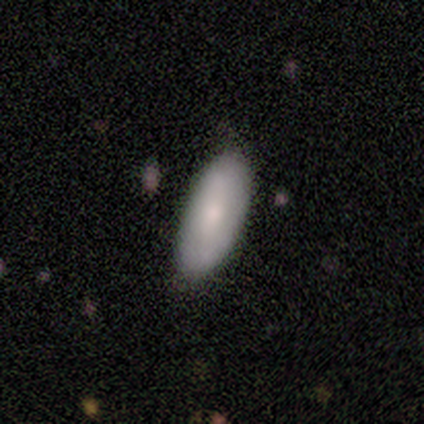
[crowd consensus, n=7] Smooth or featured: smooth — 71% (featured or disk — 29%)
How rounded: in between — 100%
Merging: none — 100%